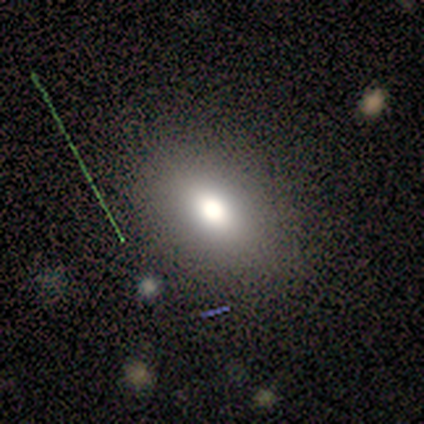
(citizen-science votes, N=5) smooth 100%, featured or disk 0%, star or artifact 0%. Down the decision tree: how rounded — in between (60%); merging — none (100%).